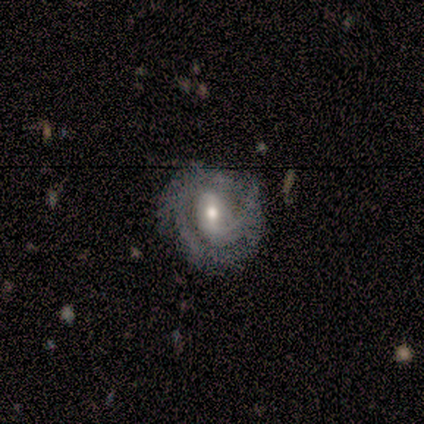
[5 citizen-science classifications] Smooth or featured: featured or disk — 100%
Edge-on disk: no — 100%
Bar: weak — 60% (no — 40%)
Spiral arms: yes — 100%
Spiral winding: tight — 60% (loose — 40%)
Spiral arm count: can't tell — 60% (1 — 20%)
Bulge size: moderate — 40% (tied with small — 40%)
Merging: none — 80% (major disturbance — 20%)